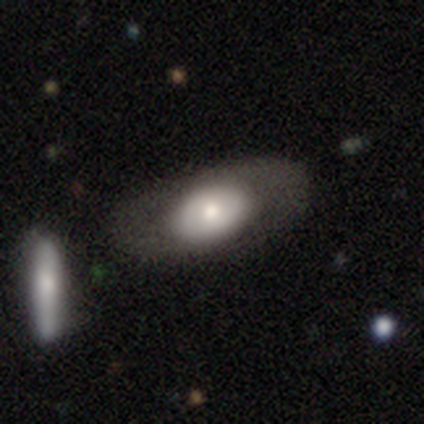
Morphology: type=smooth (57%); roundness=in between (100%); merging=none (57%).